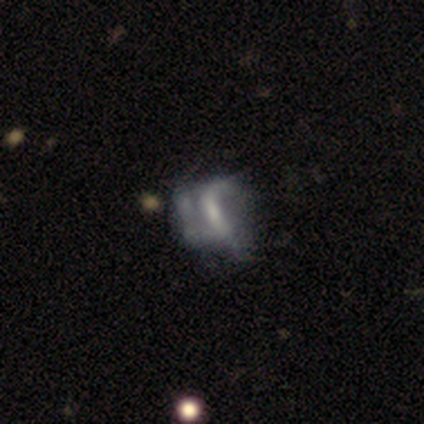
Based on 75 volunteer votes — smooth-or-featured: featured or disk: 64% | smooth: 25% | star or artifact: 11%
  disk-edge-on: no: 100% | yes: 0%
    bar: no: 40% | strong: 35% | weak: 25%
    has-spiral-arms: no: 58% | yes: 42%
    bulge-size: small: 35% | moderate: 33% | none: 29% | large: 2% | dominant: 0%
  merging: major disturbance: 42% | none: 27% | minor disturbance: 22% | merger: 9%